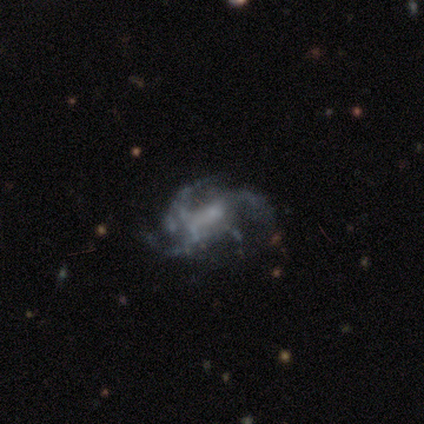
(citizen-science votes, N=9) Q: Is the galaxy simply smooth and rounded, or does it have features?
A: featured or disk — 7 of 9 (78%).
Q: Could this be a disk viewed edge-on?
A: no — 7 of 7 (100%).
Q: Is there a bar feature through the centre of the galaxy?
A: no — 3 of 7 (43%).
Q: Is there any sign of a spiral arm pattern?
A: yes — 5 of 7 (71%).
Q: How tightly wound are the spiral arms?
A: medium — 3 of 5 (60%).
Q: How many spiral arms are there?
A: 3 — 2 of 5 (40%).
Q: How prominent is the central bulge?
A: none — 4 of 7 (57%).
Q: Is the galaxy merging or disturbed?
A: none — 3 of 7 (43%, tied with major disturbance).